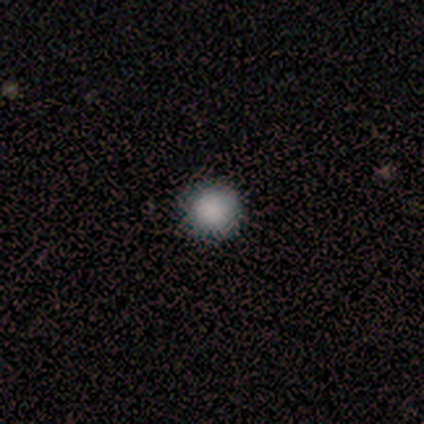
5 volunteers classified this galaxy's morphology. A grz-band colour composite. It shows a smooth galaxy with no disk features (80%) that is round (100%). Merging: none (75%).